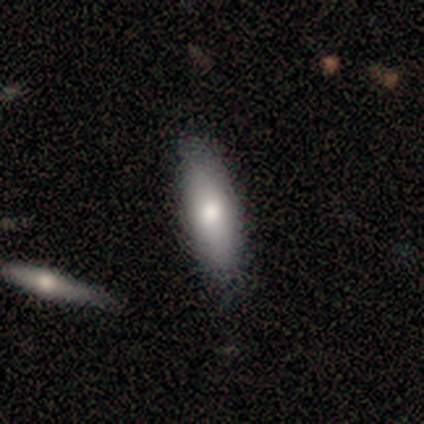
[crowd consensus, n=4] smooth-or-featured: smooth: 50% (tied) | featured or disk: 50% (tied) | star or artifact: 0%
  how-rounded: in between: 50% (tied) | cigar-shaped: 50% (tied) | round: 0%
  merging: none: 100% | minor disturbance: 0% | major disturbance: 0% | merger: 0%